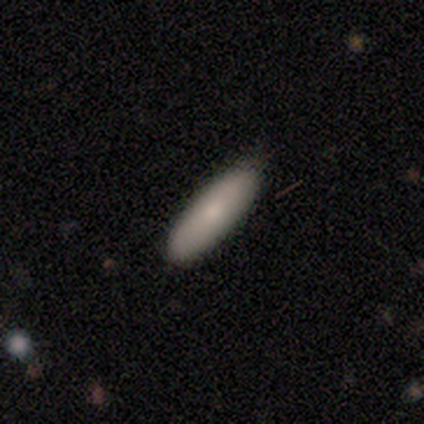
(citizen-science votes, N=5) Q: Smooth or featured?
A: smooth (80%); runner-up: star or artifact (20%)
Q: How rounded?
A: in between (75%); runner-up: cigar-shaped (25%)
Q: Merging?
A: none (75%); runner-up: minor disturbance (25%)